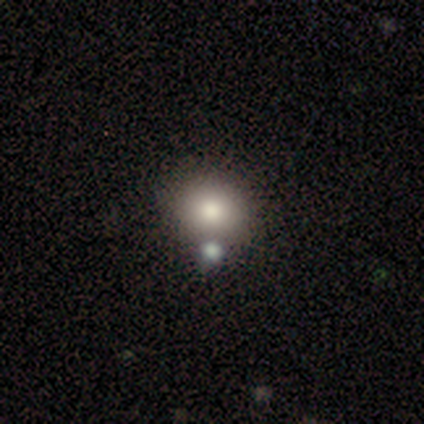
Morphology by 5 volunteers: Smooth or featured? 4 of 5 (80%) said smooth. How rounded? 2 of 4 (50%, tied with in between) said round. Merging? 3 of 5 (60%) said none.